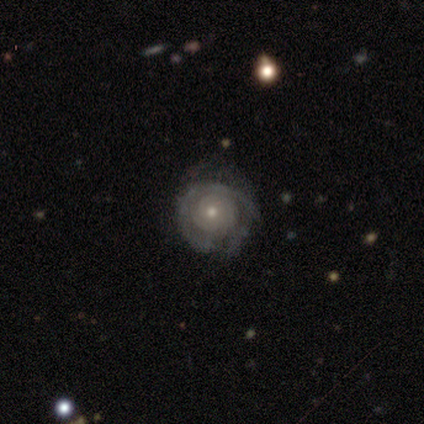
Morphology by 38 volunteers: Q: Smooth or featured?
A: featured or disk (87%); runner-up: smooth (8%)
Q: Edge-on disk?
A: no (100%)
Q: Bar?
A: no (91%); runner-up: weak (9%)
Q: Spiral arms?
A: yes (88%); runner-up: no (12%)
Q: Spiral winding?
A: tight (76%); runner-up: medium (14%)
Q: Spiral arm count?
A: can't tell (52%); runner-up: 2 (28%)
Q: Bulge size?
A: small (55%); runner-up: moderate (42%)
Q: Merging?
A: none (61%); runner-up: minor disturbance (31%)